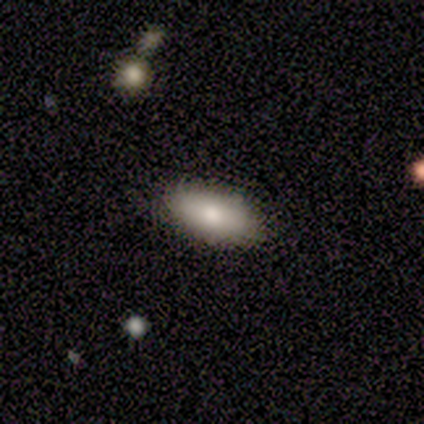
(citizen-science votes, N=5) A smooth galaxy with no disk features (100%) that is in between round and cigar-shaped (100%).

Vote fractions:
- Smooth or featured? smooth: 100% / featured or disk: 0% / star or artifact: 0%
- How rounded? in between: 100% / round: 0% / cigar-shaped: 0%
- Merging? none: 80% / minor disturbance: 20% / major disturbance: 0% / merger: 0%